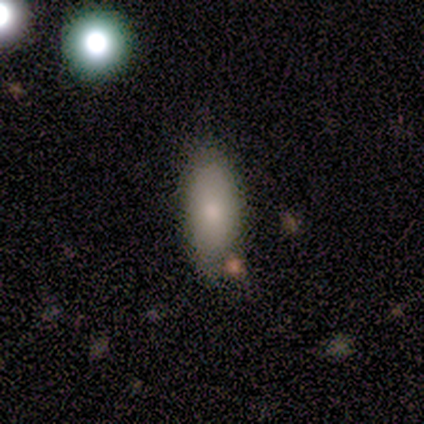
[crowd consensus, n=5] Smooth or featured? 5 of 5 (100%) said smooth. How rounded? 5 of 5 (100%) said in between. Merging? 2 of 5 (40%, tied with minor disturbance) said none.